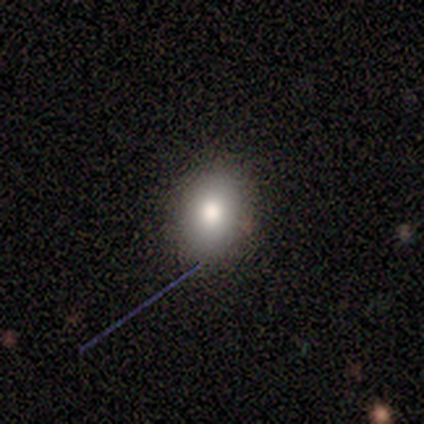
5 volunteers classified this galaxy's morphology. This appears to be a star or artifact, not a galaxy (60%).